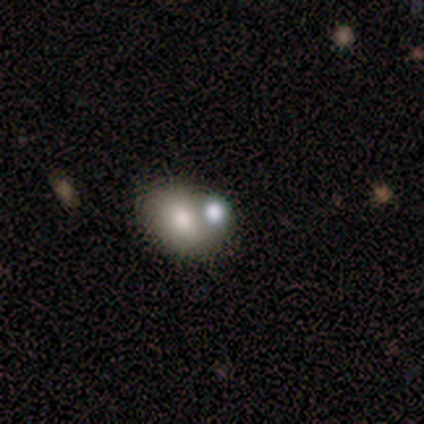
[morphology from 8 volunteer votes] smooth-or-featured: smooth: 50% (tied) | featured or disk: 50% (tied) | star or artifact: 0%
  how-rounded: in between: 75% | round: 25% | cigar-shaped: 0%
  merging: merger: 62% | none: 25% | major disturbance: 12% | minor disturbance: 0%